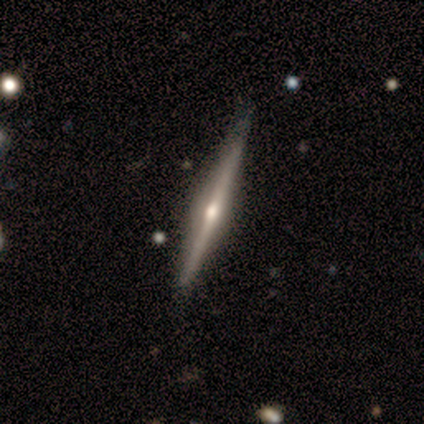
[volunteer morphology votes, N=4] smooth_or_featured: featured or disk (p=1.00)
disk_edge_on: yes (p=1.00)
edge_on_bulge: rounded (p=1.00)
merging: none (p=1.00)